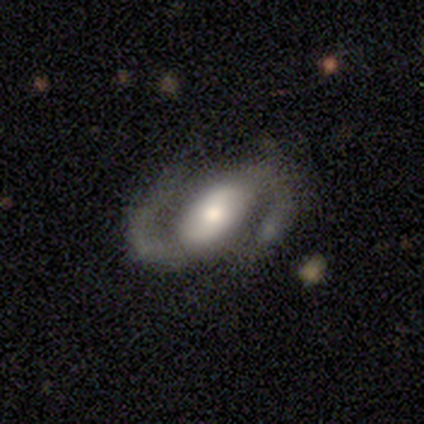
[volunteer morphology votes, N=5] type=featured or disk (80%); edge-on=no (100%); bar=weak (50%, tied with no); spiral arms=yes (100%); winding=medium (50%, tied with loose); arm count=2 (75%); bulge=moderate (50%, tied with small); merging=none (80%).